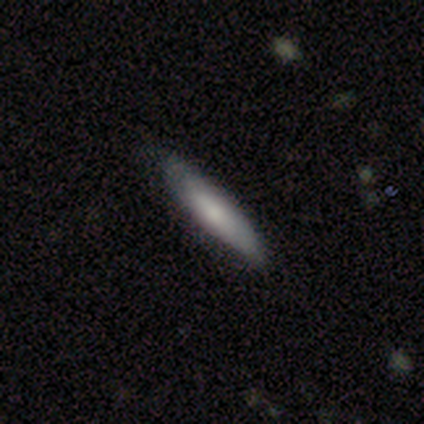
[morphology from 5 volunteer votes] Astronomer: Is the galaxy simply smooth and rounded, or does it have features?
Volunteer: smooth — 60%.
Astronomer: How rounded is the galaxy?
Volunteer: in between — 67%.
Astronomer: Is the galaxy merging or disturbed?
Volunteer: none — 100%.